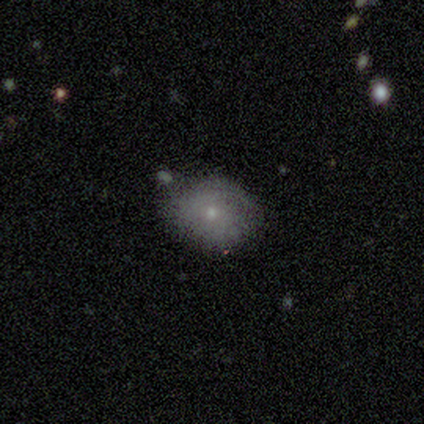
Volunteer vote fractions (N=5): A smooth galaxy with no disk features (80%) that is round (75%). Merging: none (80%).